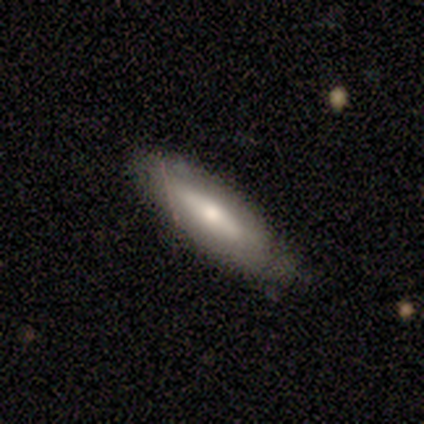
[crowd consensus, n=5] Morphology: type=featured or disk (60%); edge-on=yes (100%); edge-on bulge=rounded (67%); merging=none (75%).